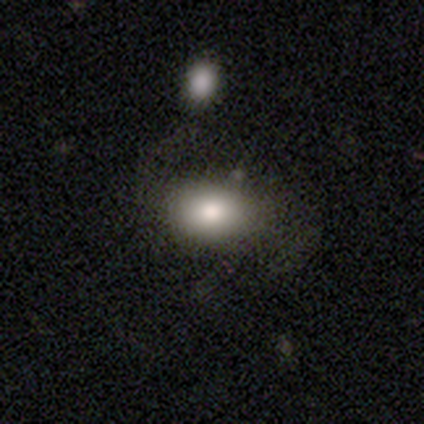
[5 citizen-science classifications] Smooth or featured? star or artifact (80%)